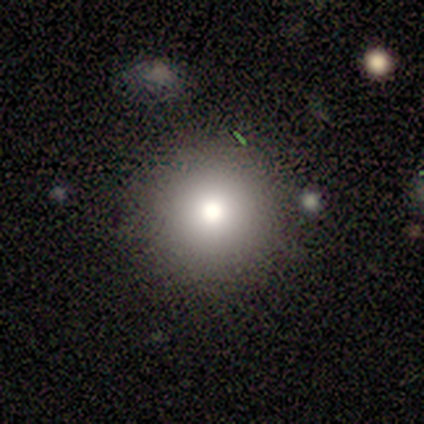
Smooth or featured? smooth (75%)
How rounded? round (100%)
Merging? none (100%)